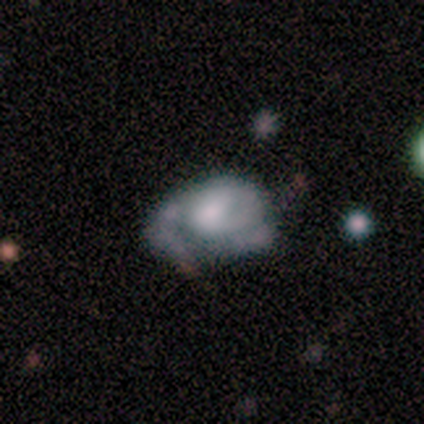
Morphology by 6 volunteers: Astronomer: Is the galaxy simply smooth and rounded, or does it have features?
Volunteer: smooth — 50%, tied with featured or disk at 50%.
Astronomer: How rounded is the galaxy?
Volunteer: in between — 100%.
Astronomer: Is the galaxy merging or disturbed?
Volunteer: minor disturbance — 50% (runner-up: none, 33%).